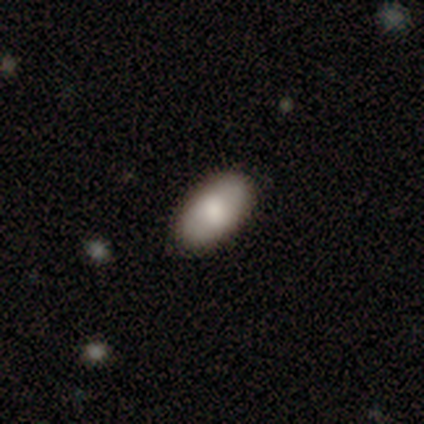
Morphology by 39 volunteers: This appears to be a smooth galaxy with no disk features (82%) that is in between round and cigar-shaped (94%). Merging: none (94%).